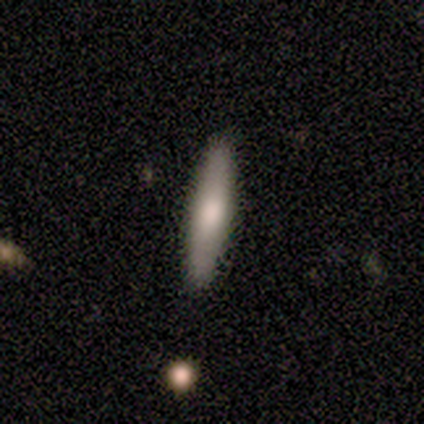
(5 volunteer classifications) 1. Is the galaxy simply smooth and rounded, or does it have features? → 80% smooth, 20% featured or disk, 0% star or artifact.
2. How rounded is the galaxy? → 75% cigar-shaped, 25% in between, 0% round.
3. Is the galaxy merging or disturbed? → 100% none, 0% minor disturbance, 0% major disturbance, 0% merger.